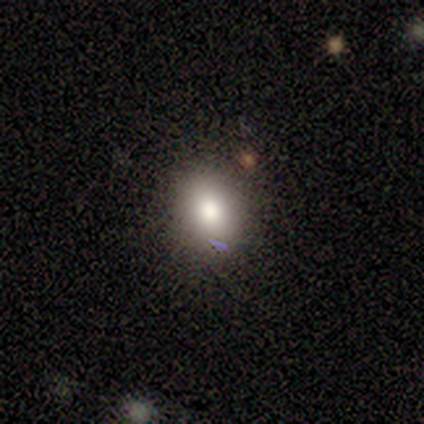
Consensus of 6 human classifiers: Smooth or featured? smooth (83%)
How rounded? in between (60%)
Merging? none (80%)